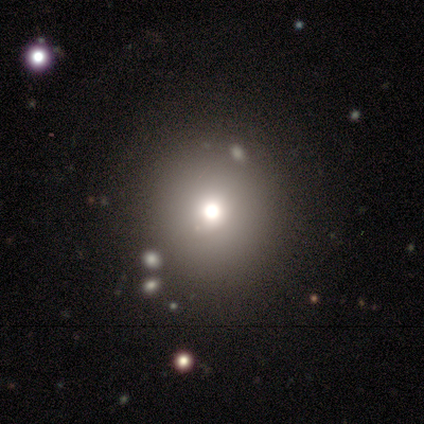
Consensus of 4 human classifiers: Volunteers were most divided on "smooth or featured": smooth: 75%, featured or disk: 25%, star or artifact: 0%. More confident: how rounded — round (100%); merging — none (75%).